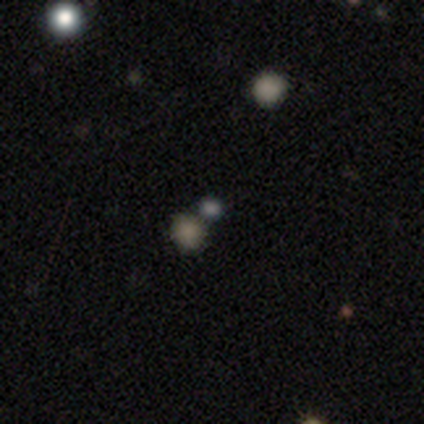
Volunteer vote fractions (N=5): smooth-or-featured: smooth: 80% | star or artifact: 20% | featured or disk: 0%
  how-rounded: round: 75% | in between: 25% | cigar-shaped: 0%
  merging: none: 75% | merger: 25% | minor disturbance: 0% | major disturbance: 0%